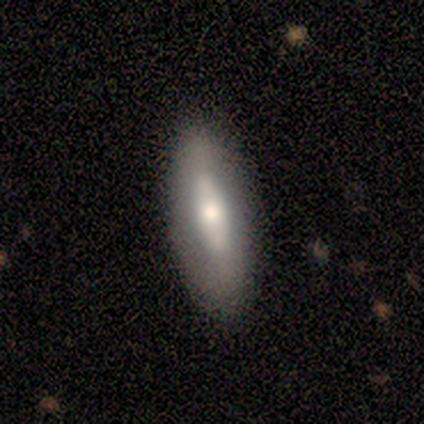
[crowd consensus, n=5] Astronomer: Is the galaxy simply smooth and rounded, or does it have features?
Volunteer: featured or disk — 40%, tied with star or artifact at 40%.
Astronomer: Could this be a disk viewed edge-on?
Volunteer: no — 100%.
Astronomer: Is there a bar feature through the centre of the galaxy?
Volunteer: strong — 50%, tied with no at 50%.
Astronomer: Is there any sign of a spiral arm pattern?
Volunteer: no — 100%.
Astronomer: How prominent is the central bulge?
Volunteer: moderate — 100%.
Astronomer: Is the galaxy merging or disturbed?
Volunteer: none — 100%.